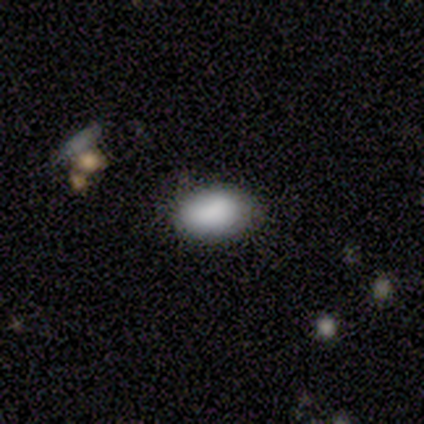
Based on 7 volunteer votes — This is clearly a smooth galaxy (100%). How rounded: clearly in between (100%). Merging: likely none (71%).